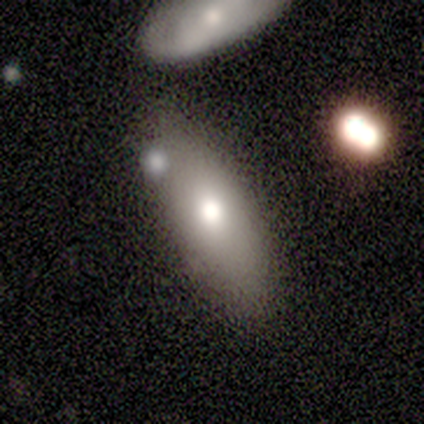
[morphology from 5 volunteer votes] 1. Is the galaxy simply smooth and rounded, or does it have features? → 80% smooth, 20% featured or disk, 0% star or artifact.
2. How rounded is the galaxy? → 75% in between, 25% cigar-shaped, 0% round.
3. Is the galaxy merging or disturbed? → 80% none, 20% merger, 0% minor disturbance, 0% major disturbance.